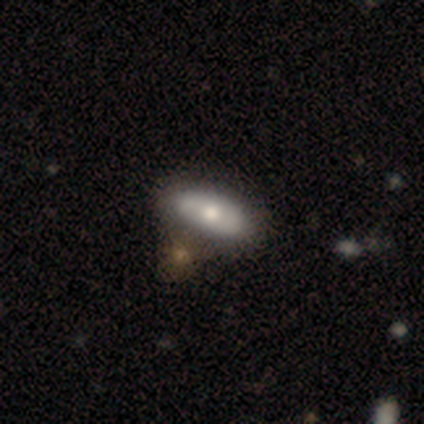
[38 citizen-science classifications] This appears to be a smooth galaxy with no disk features (63%) that is in between round and cigar-shaped (75%). Merging: none (59%).